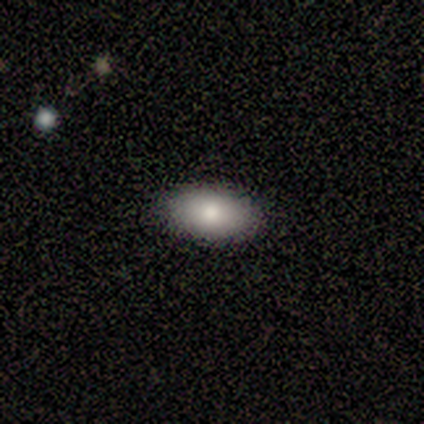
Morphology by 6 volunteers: type=smooth (100%); roundness=in between (83%); merging=none (100%).